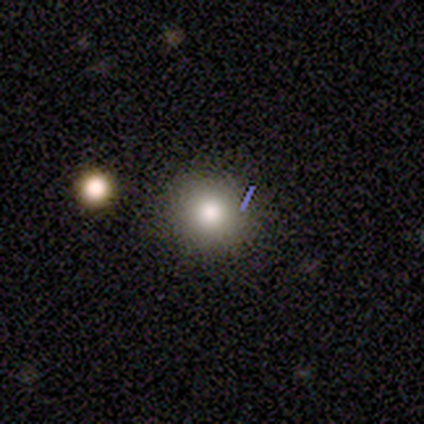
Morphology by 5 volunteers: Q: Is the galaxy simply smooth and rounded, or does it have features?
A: smooth — 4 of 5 (80%).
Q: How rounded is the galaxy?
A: round — 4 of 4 (100%).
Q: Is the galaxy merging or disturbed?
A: none — 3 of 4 (75%).